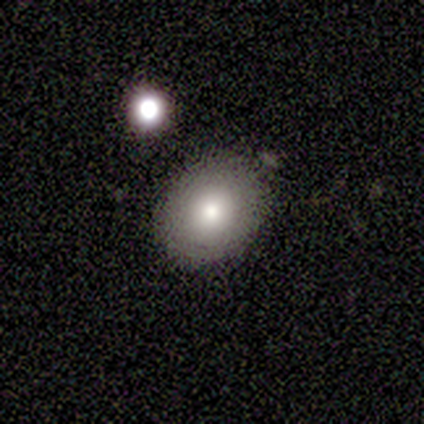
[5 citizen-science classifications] A smooth galaxy with no disk features (80%) that is in between round and cigar-shaped (100%). Merging: none (40%, tied with minor disturbance).